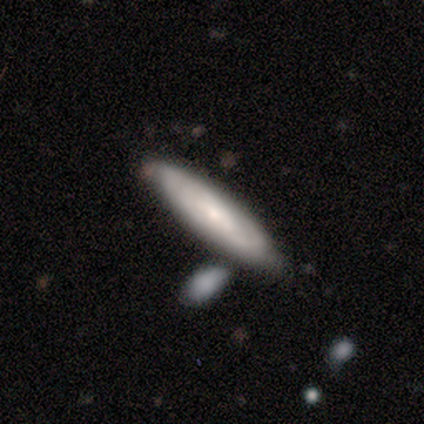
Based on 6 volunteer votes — Q: Smooth or featured?
A: smooth (67%); runner-up: featured or disk (33%)
Q: How rounded?
A: in between (50%); tied with: cigar-shaped (50%)
Q: Merging?
A: none (100%)